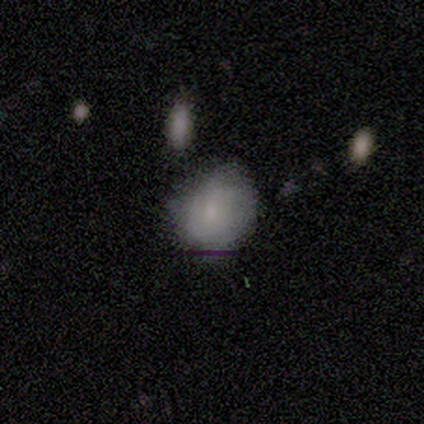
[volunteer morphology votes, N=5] Smooth or featured?
  - smooth: 100% *
  - featured or disk: 0%
  - star or artifact: 0%
How rounded?
  - in between: 80% *
  - round: 20%
  - cigar-shaped: 0%
Merging?
  - minor disturbance: 60% *
  - none: 20%
  - major disturbance: 20%
  - merger: 0%